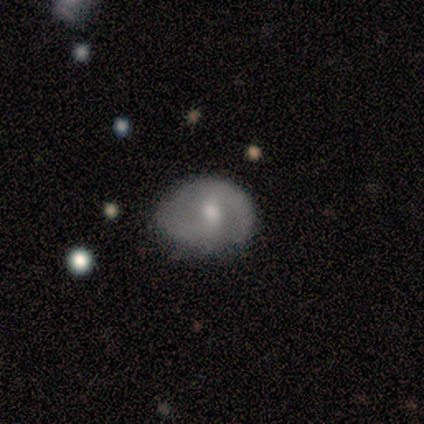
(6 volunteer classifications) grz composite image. It shows a featured or disk galaxy (83%) with a weak bar (80%), 2 (100%) loose (60%) spiral arms (100%) and a moderate central bulge (80%). Merging: minor disturbance (67%).